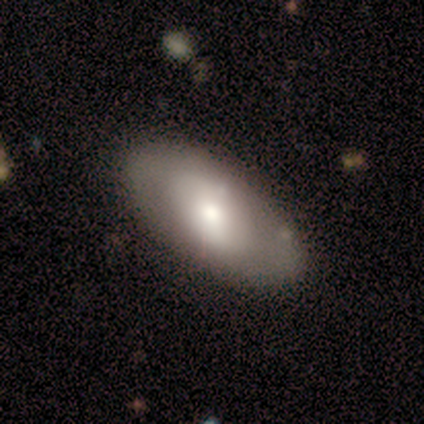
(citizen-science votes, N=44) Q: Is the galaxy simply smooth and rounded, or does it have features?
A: smooth — 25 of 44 (57%).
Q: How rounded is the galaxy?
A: in between — 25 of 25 (100%).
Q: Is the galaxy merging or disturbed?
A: none — 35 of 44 (80%).